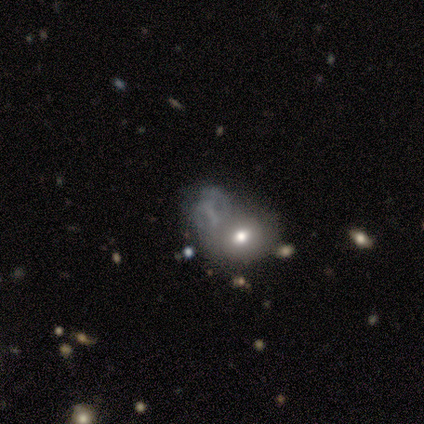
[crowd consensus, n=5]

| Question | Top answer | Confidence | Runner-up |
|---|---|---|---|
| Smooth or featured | smooth | 80% | featured or disk (20%) |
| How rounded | in between | 75% | round (25%) |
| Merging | merger | 60% | none (20%) |